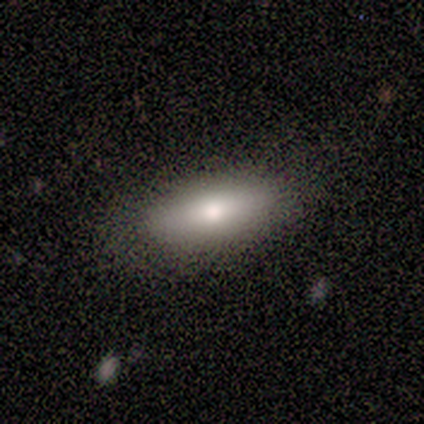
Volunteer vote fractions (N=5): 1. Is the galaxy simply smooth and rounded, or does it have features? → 60% smooth, 40% featured or disk, 0% star or artifact.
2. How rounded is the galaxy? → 67% in between, 33% cigar-shaped, 0% round.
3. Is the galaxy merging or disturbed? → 100% none, 0% minor disturbance, 0% major disturbance, 0% merger.